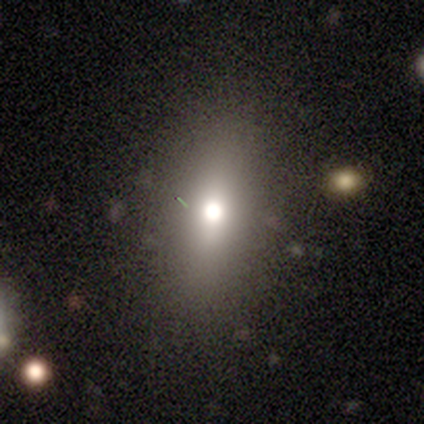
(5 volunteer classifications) This appears to be a smooth galaxy with no disk features (60%) that is in between round and cigar-shaped (67%). Merging: none (100%).